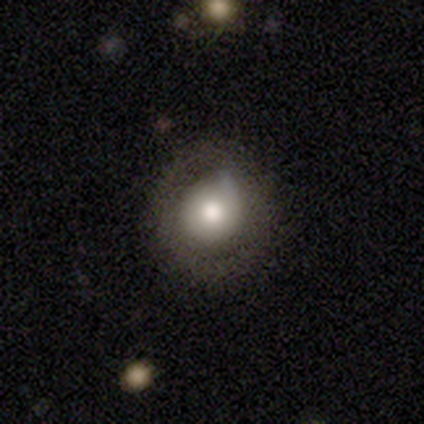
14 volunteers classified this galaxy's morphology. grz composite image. It shows a smooth galaxy with no disk features (64%) that is round (89%). Merging: none (64%).